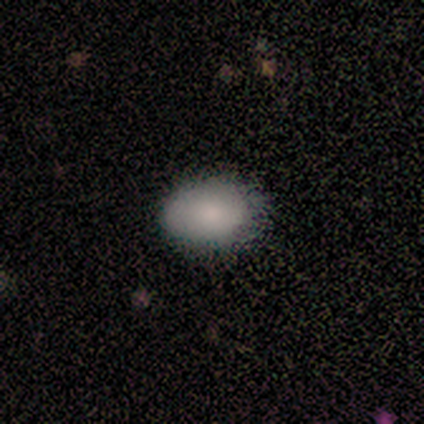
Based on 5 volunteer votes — Smooth or featured? 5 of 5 (100%) said smooth. How rounded? 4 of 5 (80%) said in between. Merging? 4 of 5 (80%) said none.